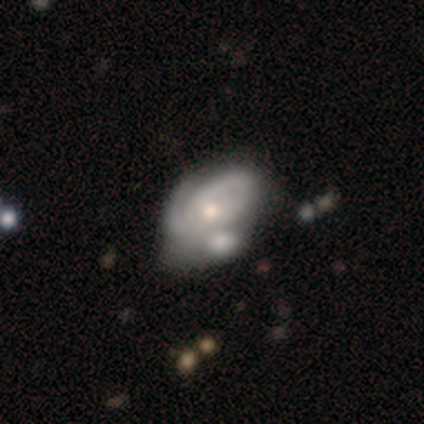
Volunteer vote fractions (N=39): Q: Smooth or featured?
A: featured or disk (85%); runner-up: smooth (15%)
Q: Edge-on disk?
A: no (100%)
Q: Bar?
A: no (67%); runner-up: weak (30%)
Q: Spiral arms?
A: yes (88%); runner-up: no (12%)
Q: Spiral winding?
A: tight (66%); runner-up: medium (21%)
Q: Spiral arm count?
A: 2 (52%); runner-up: can't tell (34%)
Q: Bulge size?
A: moderate (45%); runner-up: small (42%)
Q: Merging?
A: merger (51%); runner-up: none (13%)